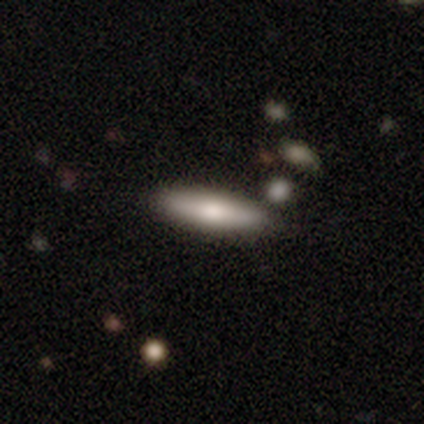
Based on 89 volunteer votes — Volunteers were most divided on "smooth or featured": smooth: 67%, featured or disk: 28%, star or artifact: 4%. More confident: how rounded — cigar-shaped (78%); merging — none (76%).